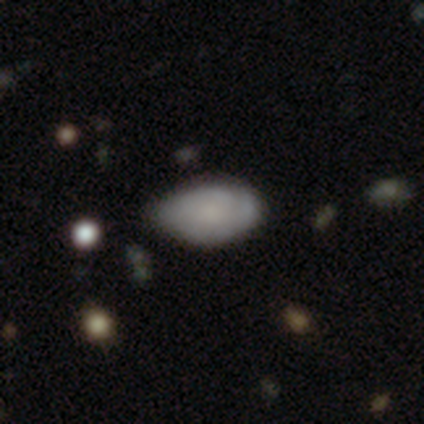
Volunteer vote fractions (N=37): Smooth or featured?
  - smooth: 76% *
  - featured or disk: 24%
  - star or artifact: 0%
How rounded?
  - in between: 96% *
  - round: 4%
  - cigar-shaped: 0%
Merging?
  - none: 49% *
  - minor disturbance: 46%
  - major disturbance: 3%
  - merger: 3%